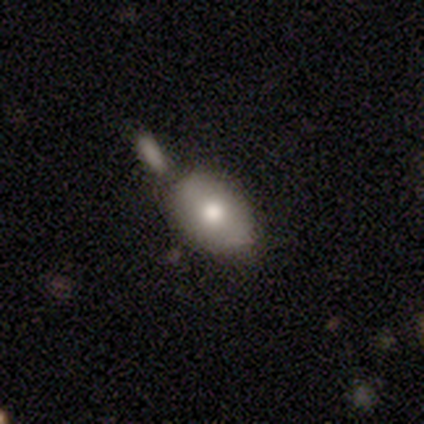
A smooth galaxy with no disk features (86%) that is in between round and cigar-shaped (100%). Merging: minor disturbance (57%).